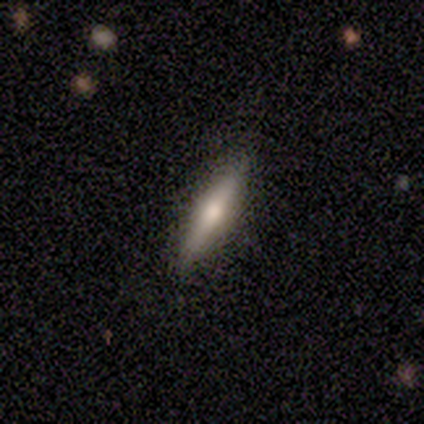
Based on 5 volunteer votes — This is likely a featured or disk galaxy (60%). It is likely viewed edge-on (67%). Edge-on bulge: clearly rounded (100%). Merging: clearly none (80%).